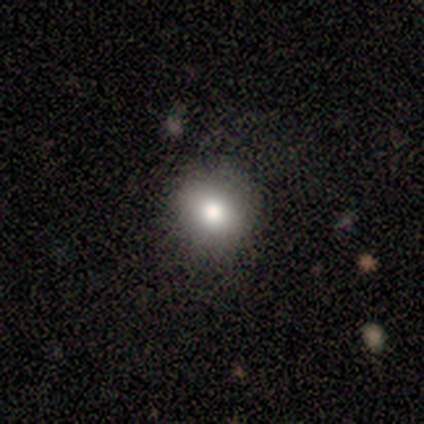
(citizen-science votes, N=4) Smooth or featured?
  - smooth: 100% *
  - featured or disk: 0%
  - star or artifact: 0%
How rounded?
  - round: 75% *
  - in between: 25%
  - cigar-shaped: 0%
Merging?
  - none: 75% *
  - minor disturbance: 25%
  - major disturbance: 0%
  - merger: 0%